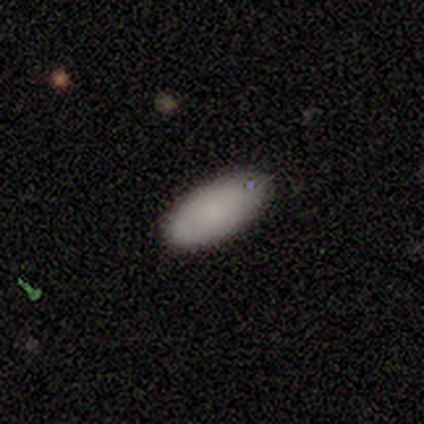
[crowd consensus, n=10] A smooth galaxy with no disk features (90%) that is in between round and cigar-shaped (100%). Merging: none (100%).